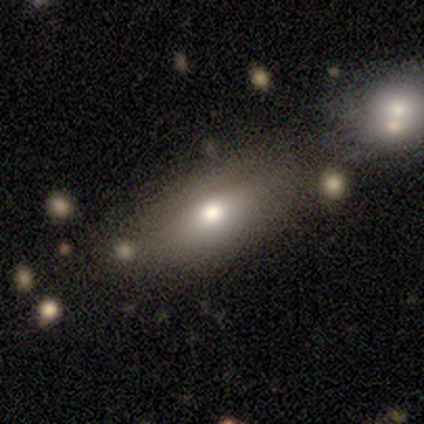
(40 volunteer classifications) Smooth or featured: smooth — 68% (featured or disk — 22%)
How rounded: in between — 78% (cigar-shaped — 15%)
Merging: none — 69% (merger — 14%)